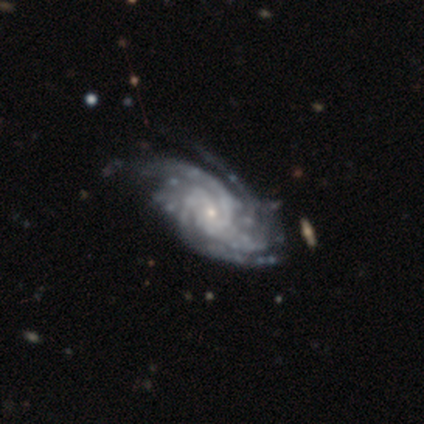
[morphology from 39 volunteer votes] Smooth or featured?
  - featured or disk: 100% *
  - smooth: 0%
  - star or artifact: 0%
Edge-on disk?
  - no: 100% *
  - yes: 0%
Bar?
  - no: 72% *
  - weak: 23%
  - strong: 5%
Spiral arms?
  - yes: 100% *
  - no: 0%
Spiral winding?
  - tight: 62% *
  - medium: 33%
  - loose: 5%
Spiral arm count?
  - 3: 26% *
  - 4: 21%
  - more than 4: 21%
  - can't tell: 21%
  - 2: 13%
  - 1: 0%
Bulge size?
  - small: 87% *
  - moderate: 13%
  - dominant: 0%
  - large: 0%
  - none: 0%
Merging?
  - none: 46% *
  - major disturbance: 18%
  - minor disturbance: 8%
  - merger: 3%